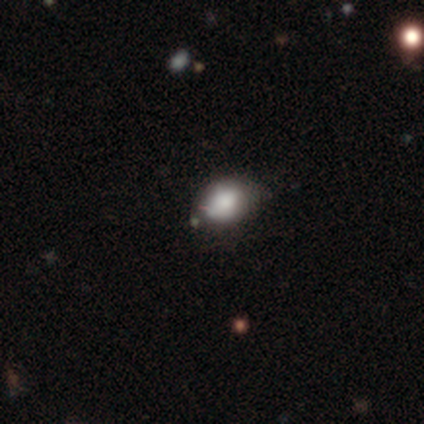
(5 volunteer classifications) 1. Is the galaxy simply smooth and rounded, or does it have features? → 80% smooth, 20% star or artifact, 0% featured or disk.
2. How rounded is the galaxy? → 100% in between, 0% round, 0% cigar-shaped.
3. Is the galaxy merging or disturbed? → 75% none, 25% minor disturbance, 0% major disturbance, 0% merger.